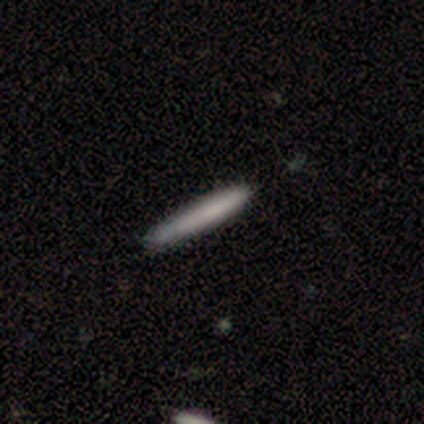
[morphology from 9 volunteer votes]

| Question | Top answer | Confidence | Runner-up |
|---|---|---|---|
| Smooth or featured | smooth | 89% | featured or disk (11%) |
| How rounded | cigar-shaped | 100% | — |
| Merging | none | 78% | minor disturbance (11%) |